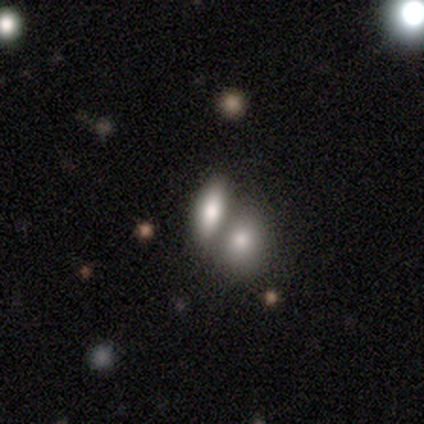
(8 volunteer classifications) This is clearly a smooth galaxy (88%). How rounded: likely in between (71%). Merging: likely merger (75%).